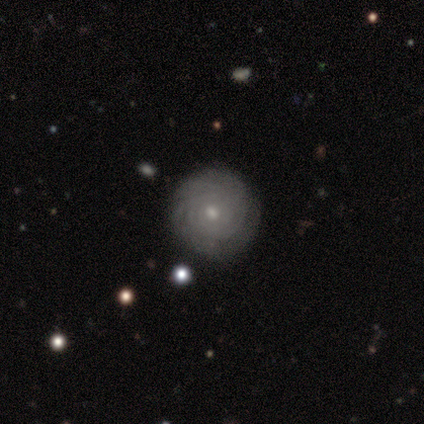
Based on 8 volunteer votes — This appears to be a featured or disk galaxy (62%) with no bar (100%), tight (100%) spiral arms (100%) and a small central bulge (75%). Merging: none (75%).